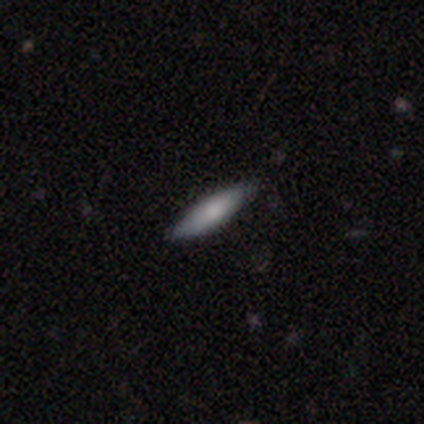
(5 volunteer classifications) A smooth galaxy with no disk features (40%, tied with featured or disk) that is in between round and cigar-shaped (50%, tied with cigar-shaped).

Vote fractions:
- Smooth or featured? smooth: 40% (tied) / featured or disk: 40% (tied) / star or artifact: 20%
- How rounded? in between: 50% (tied) / cigar-shaped: 50% (tied) / round: 0%
- Merging? none: 100% / minor disturbance: 0% / major disturbance: 0% / merger: 0%